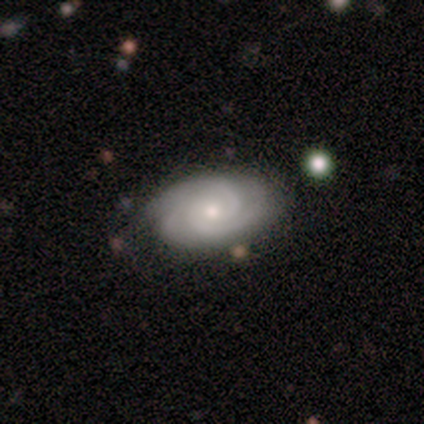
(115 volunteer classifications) smooth_or_featured: featured or disk (p=0.90) [alt: smooth p=0.09]
disk_edge_on: no (p=0.97) [alt: yes p=0.03]
bar: no (p=0.79) [alt: weak p=0.20]
has_spiral_arms: yes (p=1.00)
spiral_winding: tight (p=0.68) [alt: medium p=0.29]
spiral_arm_count: 3 (p=0.66) [alt: 2 p=0.25]
bulge_size: small (p=0.54) [alt: moderate p=0.44]
merging: none (p=0.78) [alt: minor disturbance p=0.16]